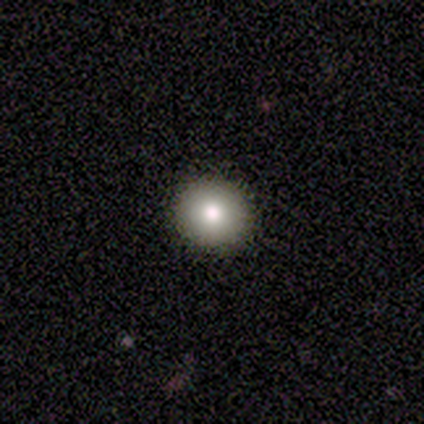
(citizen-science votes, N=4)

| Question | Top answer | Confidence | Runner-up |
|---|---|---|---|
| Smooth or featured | smooth | 50% | featured or disk (25%) |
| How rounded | round | 100% | — |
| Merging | none | 100% | — |